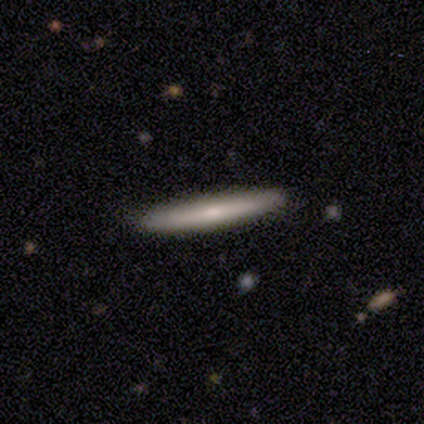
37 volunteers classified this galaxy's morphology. This is possibly a smooth galaxy (54%). How rounded: clearly cigar-shaped (100%). Merging: clearly none (91%).